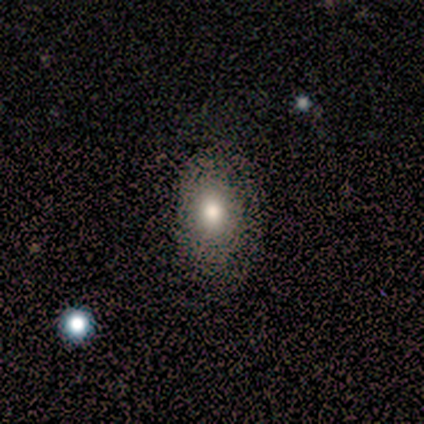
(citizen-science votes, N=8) smooth-or-featured: smooth: 75% | star or artifact: 25% | featured or disk: 0%
  how-rounded: in between: 83% | round: 17% | cigar-shaped: 0%
  merging: none: 67% | minor disturbance: 33% | major disturbance: 0% | merger: 0%